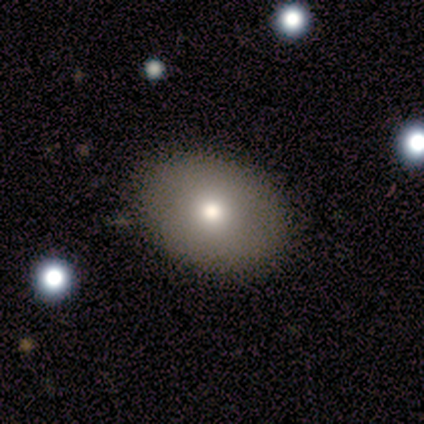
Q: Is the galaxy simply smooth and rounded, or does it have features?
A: smooth — 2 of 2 (100%).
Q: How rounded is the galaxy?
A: round — 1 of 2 (50%, tied with in between).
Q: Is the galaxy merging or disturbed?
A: none — 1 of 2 (50%, tied with minor disturbance).